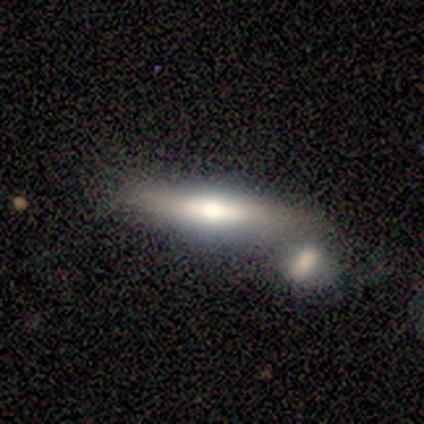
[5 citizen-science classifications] Morphology: type=smooth (60%); roundness=cigar-shaped (100%); merging=minor disturbance (60%).